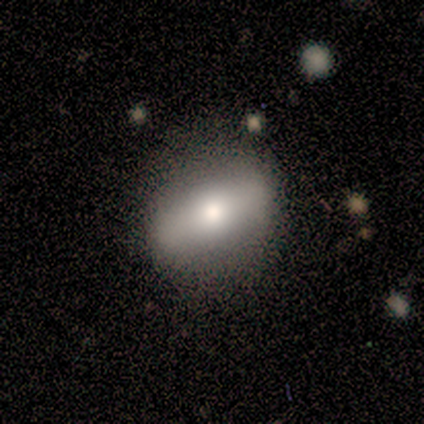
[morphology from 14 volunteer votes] Smooth or featured? smooth (50%)
How rounded? in between (43%)
Merging? none (85%)